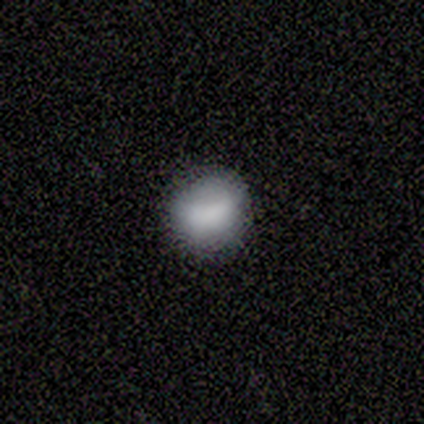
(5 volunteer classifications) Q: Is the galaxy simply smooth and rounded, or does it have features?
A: smooth — 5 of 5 (100%).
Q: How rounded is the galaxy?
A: round — 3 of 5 (60%).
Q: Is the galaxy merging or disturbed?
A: none — 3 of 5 (60%).